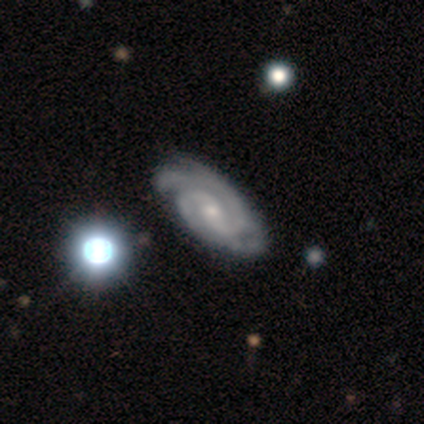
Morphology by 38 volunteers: Overall: featured or disk (89%). Edge-on disk: no (97%). Bar: no (48%; weak 30%). Spiral arms: yes (100%). Spiral arm count: 2 (58%; 3 24%). Spiral winding: tight (61%; medium 30%). Bulge size: moderate (48%; small 42%). Merging: none (44%; minor disturbance 31%).